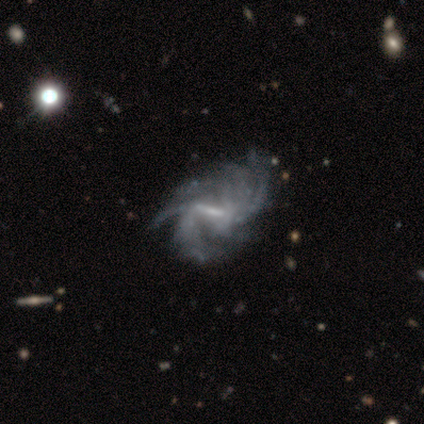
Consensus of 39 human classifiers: Smooth or featured? featured or disk (97%)
Edge-on disk? no (95%)
Bar? strong (64%)
Spiral arms? yes (94%)
Spiral winding? loose (44%)
Spiral arm count? more than 4 (41%)
Bulge size? none (42%)
Merging? none (26%, tied with minor disturbance)